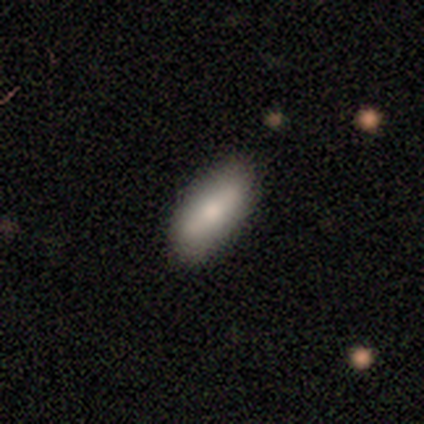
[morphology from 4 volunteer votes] Volunteers were most divided on "how rounded": in between: 67%, cigar-shaped: 33%, round: 0%. More confident: merging — none (100%); smooth or featured — smooth (75%).